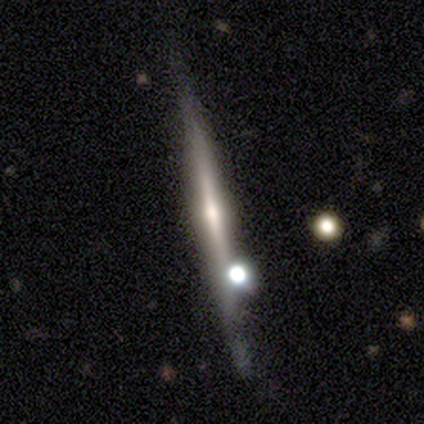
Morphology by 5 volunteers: Smooth or featured?
  - featured or disk: 80% *
  - smooth: 20%
  - star or artifact: 0%
Edge-on disk?
  - yes: 100% *
  - no: 0%
Edge-on bulge?
  - rounded: 100% *
  - boxy: 0%
  - none: 0%
Merging?
  - none: 80% *
  - merger: 20%
  - minor disturbance: 0%
  - major disturbance: 0%